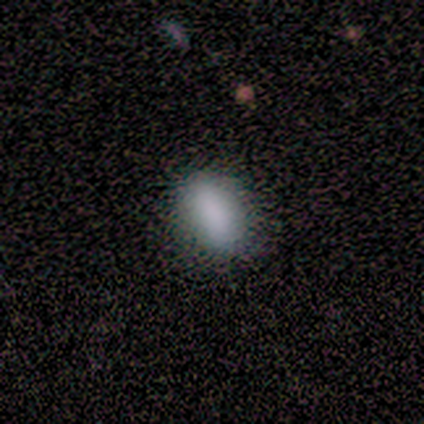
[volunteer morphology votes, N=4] Q: Smooth or featured?
A: smooth (100%)
Q: How rounded?
A: in between (75%); runner-up: round (25%)
Q: Merging?
A: none (100%)